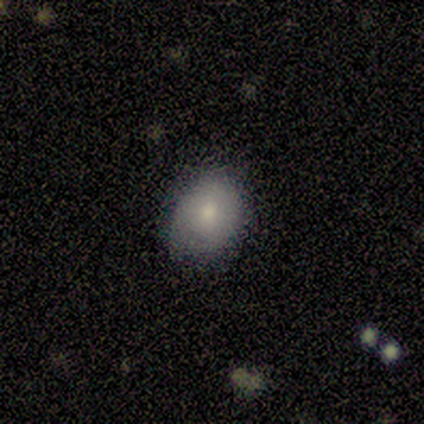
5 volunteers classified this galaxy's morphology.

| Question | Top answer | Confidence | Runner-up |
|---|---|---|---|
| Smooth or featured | smooth | 100% | — |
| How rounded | in between | 60% | round (40%) |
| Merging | none | 80% | minor disturbance (20%) |